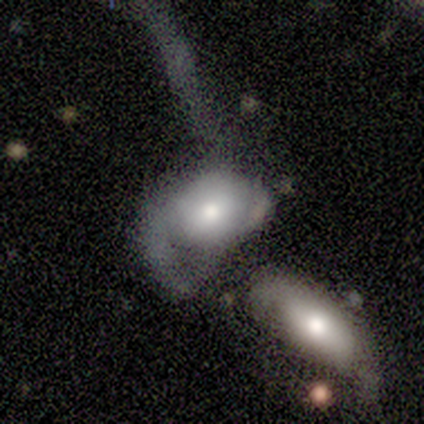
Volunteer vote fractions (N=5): Q: Smooth or featured?
A: smooth (80%); runner-up: featured or disk (20%)
Q: How rounded?
A: in between (75%); runner-up: round (25%)
Q: Merging?
A: merger (60%); runner-up: major disturbance (40%)